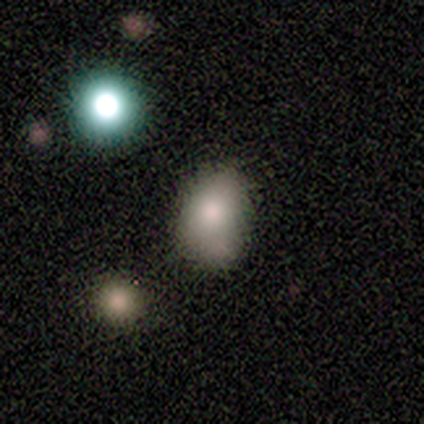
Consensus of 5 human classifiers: A smooth galaxy with no disk features (80%) that is in between round and cigar-shaped (100%).

Vote fractions:
- Smooth or featured? smooth: 80% / featured or disk: 20% / star or artifact: 0%
- How rounded? in between: 100% / round: 0% / cigar-shaped: 0%
- Merging? none: 40% (tied) / minor disturbance: 40% (tied) / major disturbance: 20% / merger: 0%